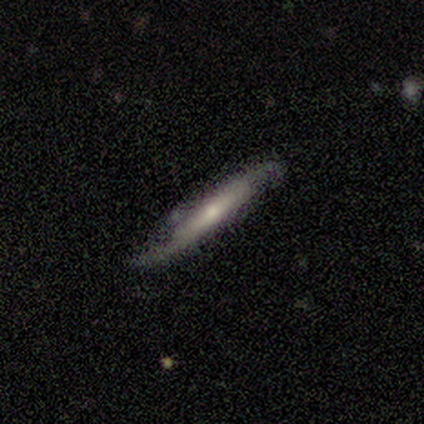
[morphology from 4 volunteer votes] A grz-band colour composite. It shows a featured or disk galaxy (75%) viewed edge-on (67%) with a boxy central bulge (50%, tied with rounded). Merging: none (67%).